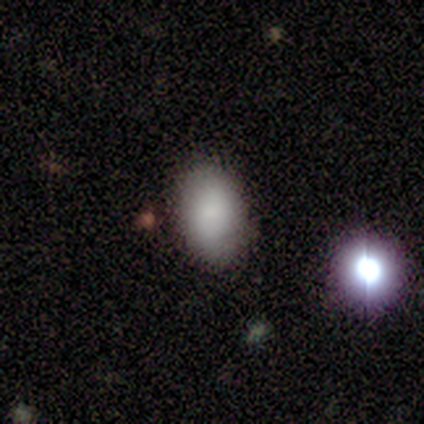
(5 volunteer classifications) smooth-or-featured: smooth: 80% | star or artifact: 20% | featured or disk: 0%
  how-rounded: in between: 100% | round: 0% | cigar-shaped: 0%
  merging: none: 75% | major disturbance: 25% | minor disturbance: 0% | merger: 0%